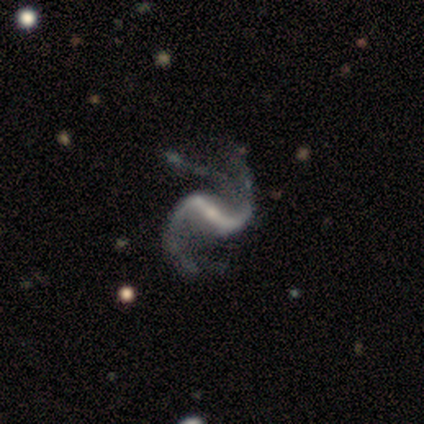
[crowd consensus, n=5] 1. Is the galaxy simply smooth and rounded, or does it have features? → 100% featured or disk, 0% smooth, 0% star or artifact.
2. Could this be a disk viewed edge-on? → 100% no, 0% yes.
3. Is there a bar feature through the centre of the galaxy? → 60% strong, 20% weak, 20% no.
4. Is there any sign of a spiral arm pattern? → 100% yes, 0% no.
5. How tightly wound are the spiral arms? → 60% loose, 40% medium, 0% tight.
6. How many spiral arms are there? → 80% 2, 20% 1, 0% 3, 0% 4, 0% more than 4, 0% can't tell.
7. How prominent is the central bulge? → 80% small, 20% none, 0% dominant, 0% large, 0% moderate.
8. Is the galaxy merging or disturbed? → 60% none, 20% minor disturbance, 20% merger, 0% major disturbance.